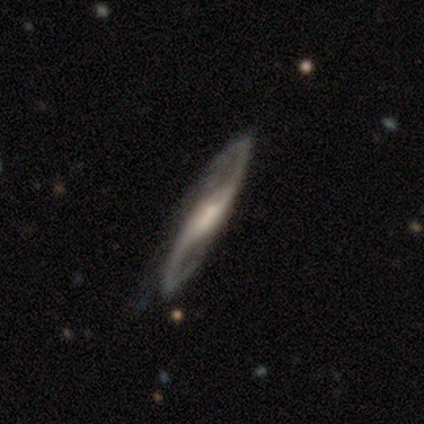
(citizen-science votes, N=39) Q: Smooth or featured?
A: featured or disk (90%); runner-up: smooth (10%)
Q: Edge-on disk?
A: no (83%); runner-up: yes (17%)
Q: Bar?
A: strong (34%); tied with: weak (34%)
Q: Spiral arms?
A: yes (100%)
Q: Spiral winding?
A: loose (45%); runner-up: medium (41%)
Q: Spiral arm count?
A: 2 (100%)
Q: Bulge size?
A: moderate (41%); runner-up: small (34%)
Q: Merging?
A: none (46%); runner-up: minor disturbance (10%)